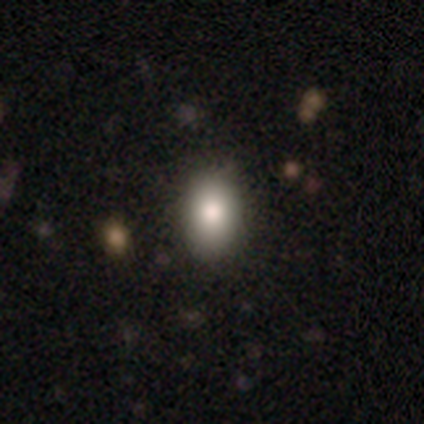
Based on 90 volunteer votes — A smooth galaxy with no disk features (83%) that is in between round and cigar-shaped (80%).

Vote fractions:
- Smooth or featured? smooth: 83% / star or artifact: 10% / featured or disk: 7%
- How rounded? in between: 80% / round: 19% / cigar-shaped: 1%
- Merging? none: 91% / minor disturbance: 7% / major disturbance: 1% / merger: 0%